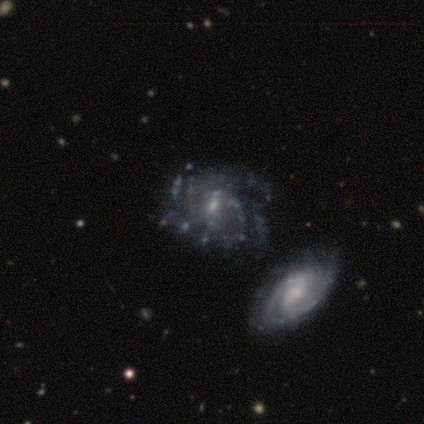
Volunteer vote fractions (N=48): Smooth or featured: featured or disk — 88% (smooth — 10%)
Edge-on disk: no — 100%
Bar: no — 62% (weak — 36%)
Spiral arms: yes — 76% (no — 24%)
Spiral winding: tight — 53% (medium — 28%)
Spiral arm count: can't tell — 47% (2 — 19%)
Bulge size: small — 62% (moderate — 31%)
Merging: none — 43% (major disturbance — 23%)